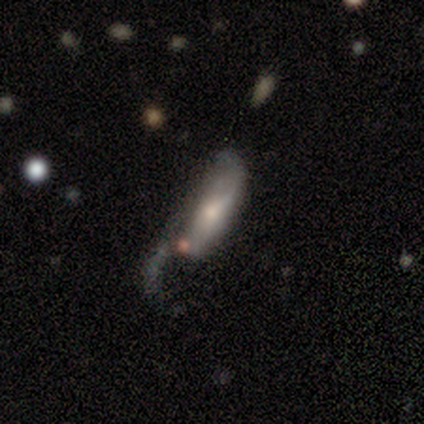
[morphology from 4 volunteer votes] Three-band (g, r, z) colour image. It shows a smooth galaxy with no disk features (75%) that is cigar-shaped (67%). Merging: major disturbance (75%).